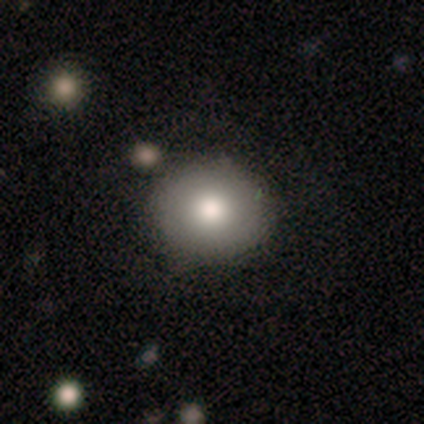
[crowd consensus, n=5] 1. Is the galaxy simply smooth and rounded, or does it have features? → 60% smooth, 40% featured or disk, 0% star or artifact.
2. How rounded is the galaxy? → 100% round, 0% in between, 0% cigar-shaped.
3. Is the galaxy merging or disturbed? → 80% none, 20% minor disturbance, 0% major disturbance, 0% merger.